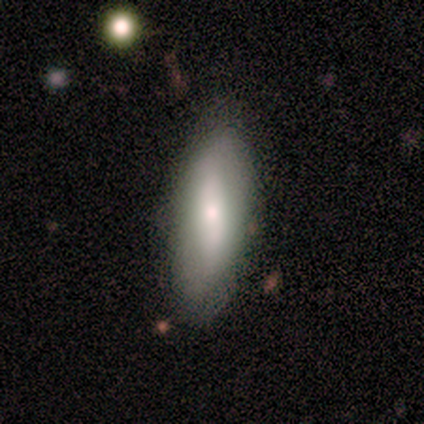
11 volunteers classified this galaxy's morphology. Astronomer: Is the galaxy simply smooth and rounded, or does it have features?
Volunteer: smooth — 82%.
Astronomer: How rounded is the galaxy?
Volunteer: in between — 89%.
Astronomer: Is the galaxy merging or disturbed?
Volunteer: none — 73%.